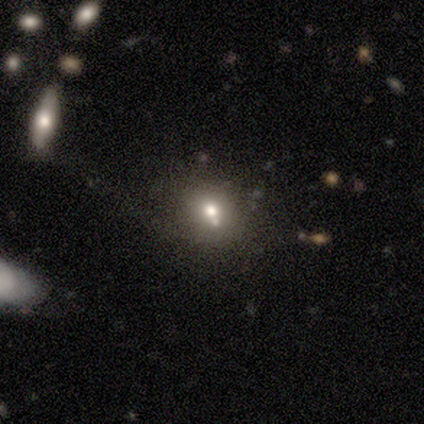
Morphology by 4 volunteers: This is possibly a smooth galaxy (50%, tied with featured or disk). How rounded: clearly round (100%). Merging: possibly minor disturbance (50%).